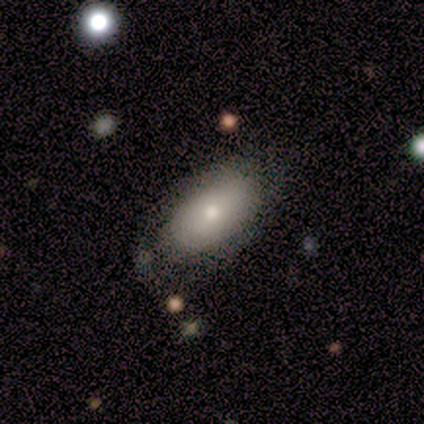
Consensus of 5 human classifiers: Q: Smooth or featured?
A: smooth (80%); runner-up: featured or disk (20%)
Q: How rounded?
A: in between (75%); runner-up: round (25%)
Q: Merging?
A: none (80%); runner-up: minor disturbance (20%)